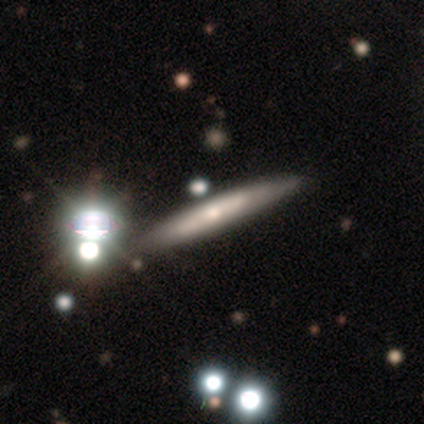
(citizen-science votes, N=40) Smooth or featured: featured or disk — 62% (smooth — 28%)
Edge-on disk: yes — 88% (no — 12%)
Edge-on bulge: rounded — 55% (none — 36%)
Merging: none — 69% (minor disturbance — 8%)